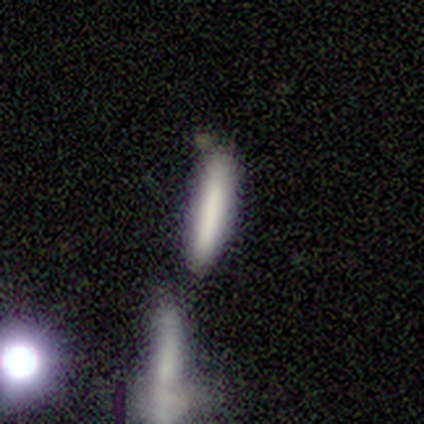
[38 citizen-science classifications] Volunteers were most divided on "merging": none: 66%, merger: 23%, minor disturbance: 11%, major disturbance: 0%. More confident: how rounded — cigar-shaped (97%); smooth or featured — smooth (84%).